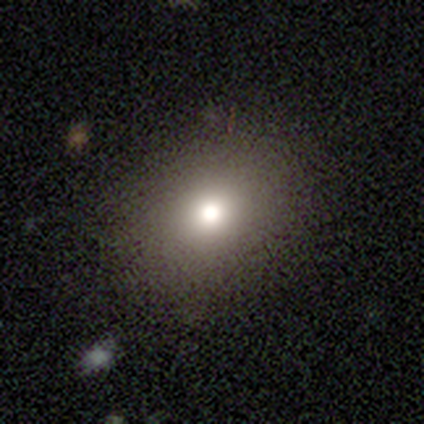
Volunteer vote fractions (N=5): Smooth or featured: smooth — 80% (star or artifact — 20%)
How rounded: in between — 100%
Merging: none — 100%